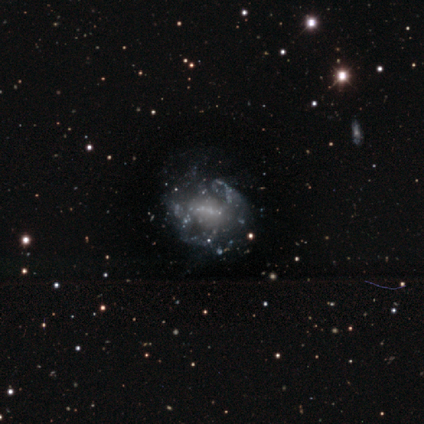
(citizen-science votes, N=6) Q: Smooth or featured?
A: featured or disk (67%); runner-up: star or artifact (33%)
Q: Edge-on disk?
A: no (100%)
Q: Bar?
A: weak (75%); runner-up: no (25%)
Q: Spiral arms?
A: yes (50%); tied with: no (50%)
Q: Spiral winding?
A: tight (50%); tied with: loose (50%)
Q: Spiral arm count?
A: 2 (50%); tied with: can't tell (50%)
Q: Bulge size?
A: none (75%); runner-up: small (25%)
Q: Merging?
A: minor disturbance (50%); runner-up: none (25%)